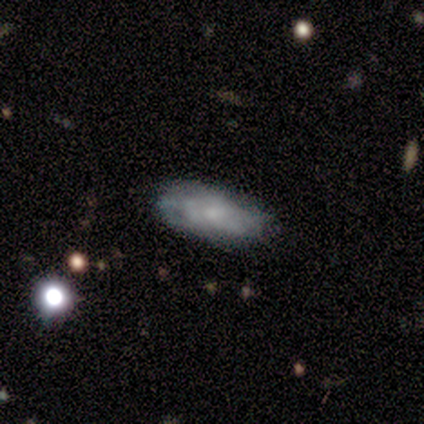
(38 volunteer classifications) A smooth galaxy with no disk features (53%) that is in between round and cigar-shaped (75%). Merging: none (70%).